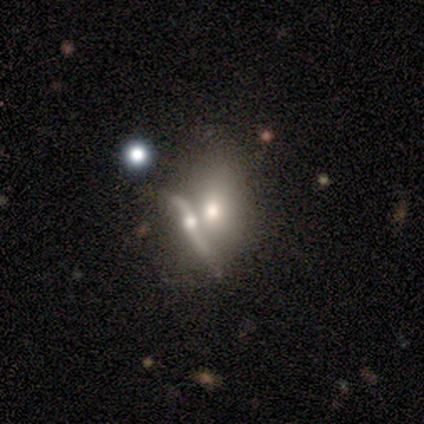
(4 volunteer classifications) Smooth or featured? 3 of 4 (75%) said smooth. How rounded? 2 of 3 (67%) said in between. Merging? 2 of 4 (50%, tied with merger) said minor disturbance.